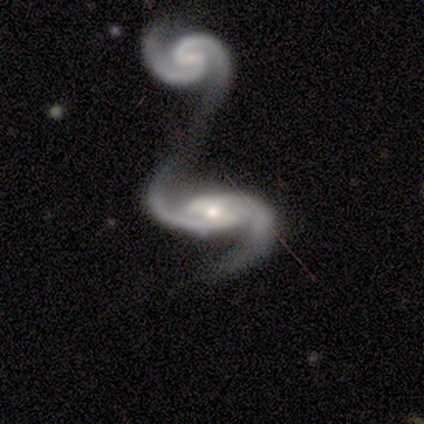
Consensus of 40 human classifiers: A featured or disk galaxy (90%) with a weak bar (50%), 2 (100%) medium (40%) spiral arms (97%) and a moderate central bulge (61%). Merging: merger (63%).